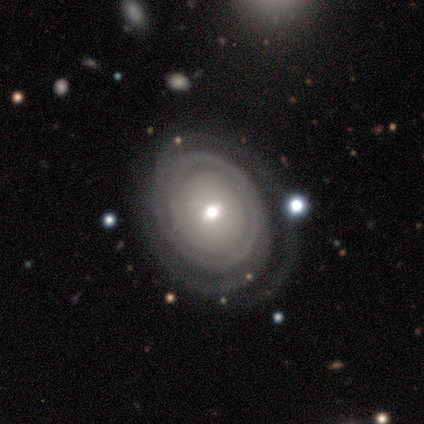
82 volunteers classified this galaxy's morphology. This is clearly a featured or disk galaxy (90%). It is clearly not viewed edge-on (100%). Bar: likely no (66%). Spiral arm pattern: clearly yes (91%). Spiral arm count: marginally can't tell (33%). Spiral winding: clearly tight (84%). Central bulge: possibly moderate (57%). Merging: clearly none (85%).